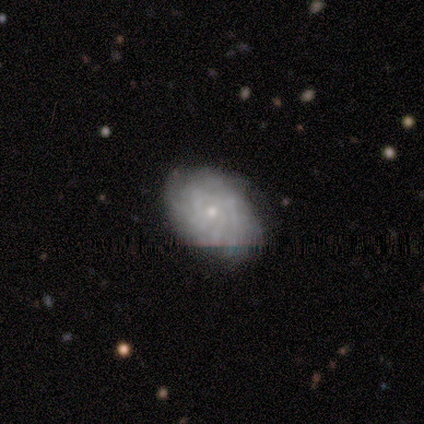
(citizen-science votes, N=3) Volunteers were most divided on "smooth or featured": featured or disk: 67%, smooth: 33%, star or artifact: 0%. More confident: edge-on disk — no (100%); bar — no (100%); spiral arms — yes (100%); spiral winding — tight (100%); spiral arm count — can't tell (100%); bulge size — small (100%); merging — none (67%).